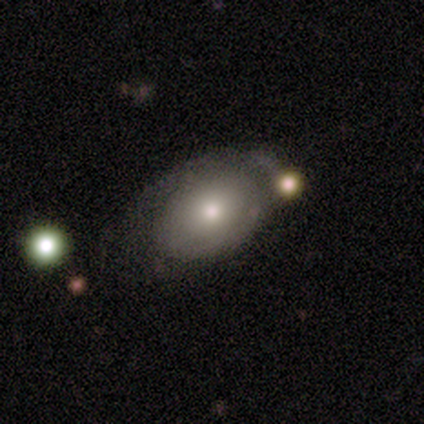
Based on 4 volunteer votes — A smooth galaxy with no disk features (50%, tied with featured or disk) that is in between round and cigar-shaped (100%). Merging: merger (50%).